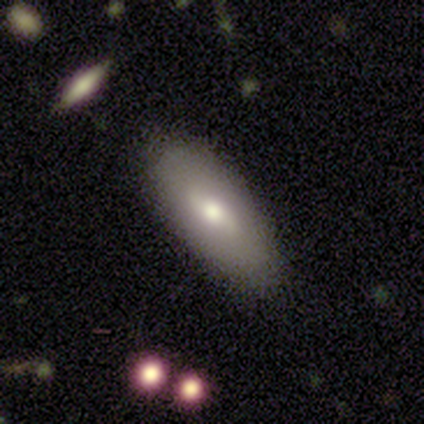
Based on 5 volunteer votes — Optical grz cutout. It shows a smooth galaxy with no disk features (60%) that is in between round and cigar-shaped (67%). Merging: none (80%).